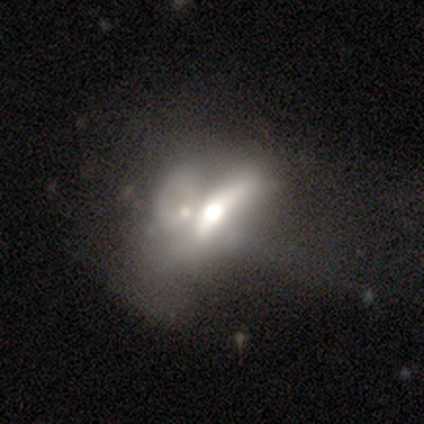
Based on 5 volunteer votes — A smooth galaxy with no disk features (80%) that is round (50%, tied with in between). Merging: none (40%, tied with merger).